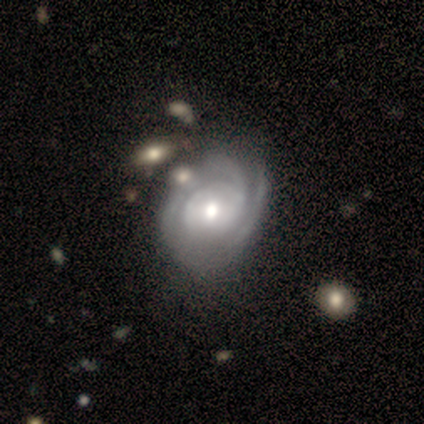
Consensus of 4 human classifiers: Smooth or featured?
  - featured or disk: 100% *
  - smooth: 0%
  - star or artifact: 0%
Edge-on disk?
  - no: 100% *
  - yes: 0%
Bar?
  - weak: 50% *
  - strong: 25%
  - no: 25%
Spiral arms?
  - yes: 100% *
  - no: 0%
Spiral winding?
  - tight: 75% *
  - loose: 25%
  - medium: 0%
Spiral arm count?
  - 2: 75% *
  - 3: 25%
  - 1: 0%
  - 4: 0%
  - more than 4: 0%
  - can't tell: 0%
Bulge size?
  - moderate: 100% *
  - dominant: 0%
  - large: 0%
  - small: 0%
  - none: 0%
Merging?
  - none: 75% *
  - minor disturbance: 25%
  - major disturbance: 0%
  - merger: 0%